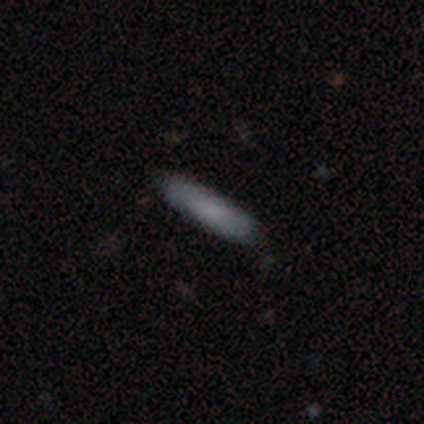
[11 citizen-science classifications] Smooth or featured?
  - smooth: 91% *
  - featured or disk: 9%
  - star or artifact: 0%
How rounded?
  - in between: 50% * (tied)
  - cigar-shaped: 50% * (tied)
  - round: 0%
Merging?
  - none: 100% *
  - minor disturbance: 0%
  - major disturbance: 0%
  - merger: 0%